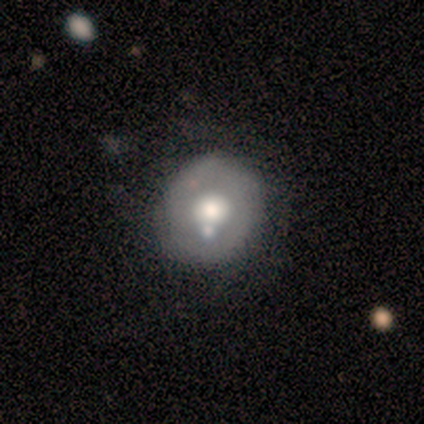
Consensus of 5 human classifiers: Morphology: type=smooth (60%); roundness=in between (67%); merging=none (40%, tied with merger).